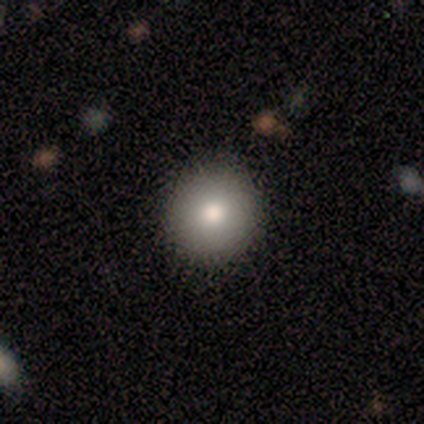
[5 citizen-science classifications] smooth 100%, featured or disk 0%, star or artifact 0%. Down the decision tree: how rounded — round (80%); merging — none (100%).